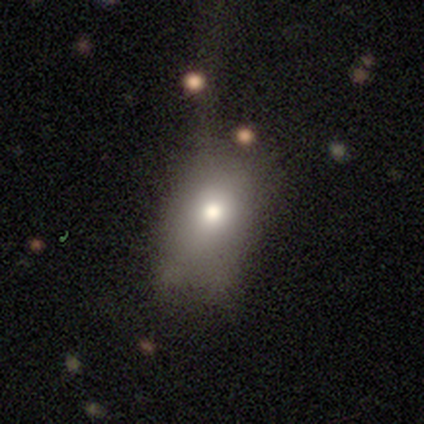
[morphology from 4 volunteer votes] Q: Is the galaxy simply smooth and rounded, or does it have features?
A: smooth — 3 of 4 (75%).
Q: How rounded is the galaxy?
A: in between — 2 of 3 (67%).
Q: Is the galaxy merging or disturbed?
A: none — 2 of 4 (50%, tied with minor disturbance).